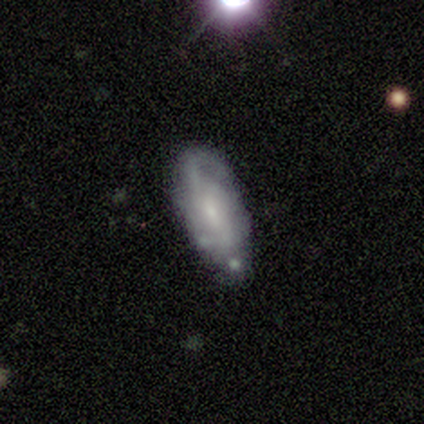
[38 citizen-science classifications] A featured or disk galaxy (74%) with a weak bar (54%), medium (59%) spiral arms (92%) and a small central bulge (67%).

Vote fractions:
- Smooth or featured? featured or disk: 74% / smooth: 24% / star or artifact: 3%
- Edge-on disk? no: 86% / yes: 14%
- Bar? weak: 54% / no: 46% / strong: 0%
- Spiral arms? yes: 92% / no: 8%
- Spiral winding? medium: 59% / loose: 23% / tight: 18%
- Spiral arm count? can't tell: 50% / 2: 45% / 1: 5% / 3: 0% / 4: 0% / more than 4: 0%
- Bulge size? small: 67% / moderate: 29% / large: 4% / dominant: 0% / none: 0%
- Merging? minor disturbance: 46% / none: 43% / major disturbance: 5% / merger: 5%